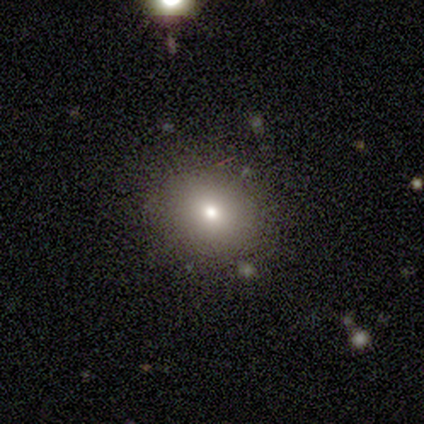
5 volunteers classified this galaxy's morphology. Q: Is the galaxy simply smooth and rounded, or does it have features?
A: smooth — 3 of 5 (60%).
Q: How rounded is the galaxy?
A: in between — 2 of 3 (67%).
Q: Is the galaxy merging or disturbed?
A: none — 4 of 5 (80%).